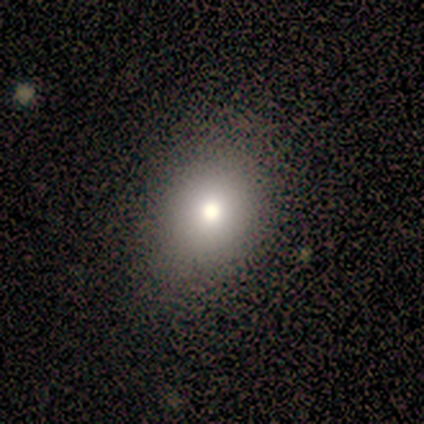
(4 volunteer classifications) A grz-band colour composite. It shows a smooth galaxy with no disk features (100%) that is round (100%). Merging: none (100%).